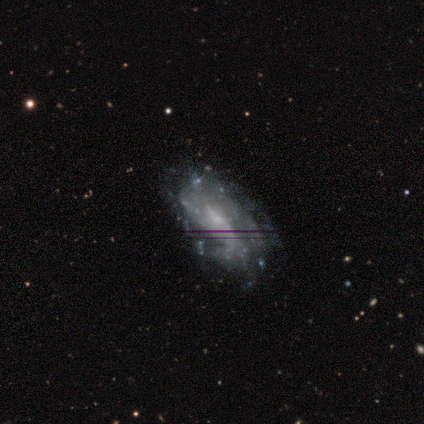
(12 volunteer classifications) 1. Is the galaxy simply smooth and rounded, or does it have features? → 83% featured or disk, 17% smooth, 0% star or artifact.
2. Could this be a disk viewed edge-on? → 100% no, 0% yes.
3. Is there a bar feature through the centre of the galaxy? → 50% no, 30% weak, 20% strong.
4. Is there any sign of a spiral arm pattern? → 80% yes, 20% no.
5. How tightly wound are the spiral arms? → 50% medium, 25% tight, 25% loose.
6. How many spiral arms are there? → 38% can't tell, 25% 1, 12% 2, 12% 3, 12% 4, 0% more than 4.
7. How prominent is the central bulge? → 90% small, 10% none, 0% dominant, 0% large, 0% moderate.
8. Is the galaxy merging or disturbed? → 50% none, 42% minor disturbance, 8% merger, 0% major disturbance.